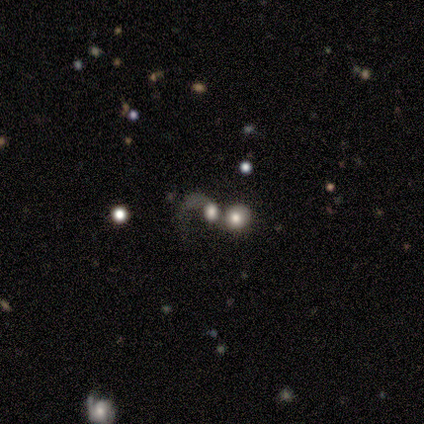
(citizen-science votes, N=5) Smooth or featured? 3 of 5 (60%) said featured or disk. Edge-on disk? 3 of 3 (100%) said no. Bar? 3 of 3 (100%) said no. Spiral arms? 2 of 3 (67%) said no. Bulge size? 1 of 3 (33%, tied with moderate and none) said large. Merging? 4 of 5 (80%) said merger.